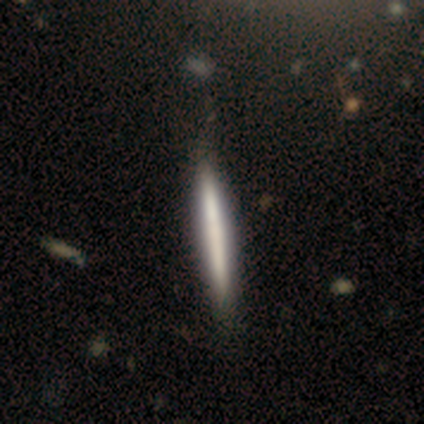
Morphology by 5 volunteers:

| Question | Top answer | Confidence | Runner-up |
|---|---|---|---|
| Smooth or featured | smooth | 60% | featured or disk (40%) |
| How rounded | cigar-shaped | 100% | — |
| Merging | none | 100% | — |